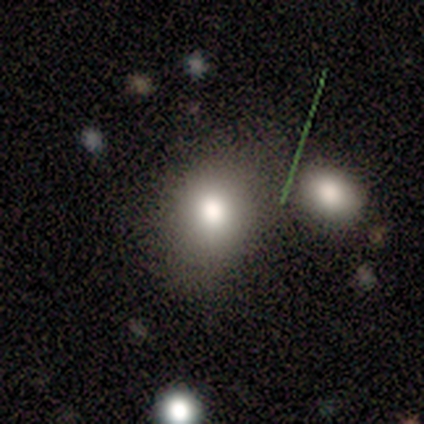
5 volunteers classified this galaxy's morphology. type=smooth (100%); roundness=round (80%); merging=none (80%).